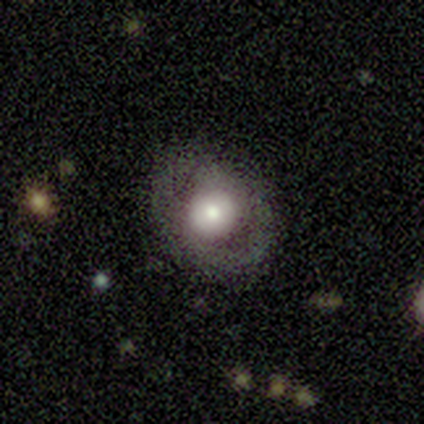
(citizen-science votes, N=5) Smooth or featured?
  - featured or disk: 40% * (tied)
  - star or artifact: 40% * (tied)
  - smooth: 20%
Edge-on disk?
  - no: 100% *
  - yes: 0%
Bar?
  - no: 100% *
  - strong: 0%
  - weak: 0%
Spiral arms?
  - no: 100% *
  - yes: 0%
Bulge size?
  - large: 100% *
  - dominant: 0%
  - moderate: 0%
  - small: 0%
  - none: 0%
Merging?
  - none: 67% *
  - minor disturbance: 33%
  - major disturbance: 0%
  - merger: 0%